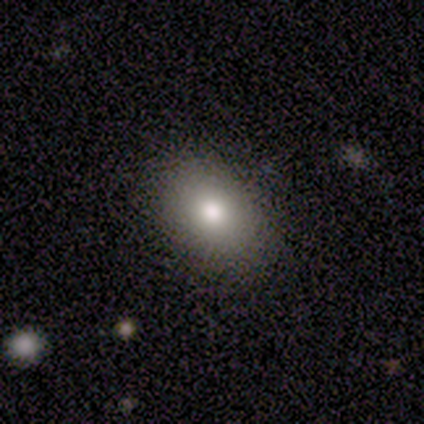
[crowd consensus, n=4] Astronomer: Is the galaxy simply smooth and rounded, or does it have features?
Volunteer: smooth — 75%.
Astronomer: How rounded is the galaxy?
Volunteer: in between — 67%.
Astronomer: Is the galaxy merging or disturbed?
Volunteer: none — 75%.